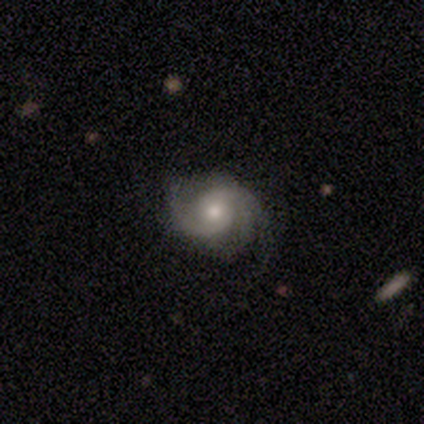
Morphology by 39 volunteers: Q: Smooth or featured?
A: featured or disk (90%); runner-up: smooth (5%)
Q: Edge-on disk?
A: no (100%)
Q: Bar?
A: no (74%); runner-up: weak (23%)
Q: Spiral arms?
A: yes (100%)
Q: Spiral winding?
A: medium (54%); runner-up: tight (34%)
Q: Spiral arm count?
A: 2 (71%); runner-up: 3 (20%)
Q: Bulge size?
A: moderate (71%); runner-up: small (20%)
Q: Merging?
A: none (70%); runner-up: minor disturbance (22%)